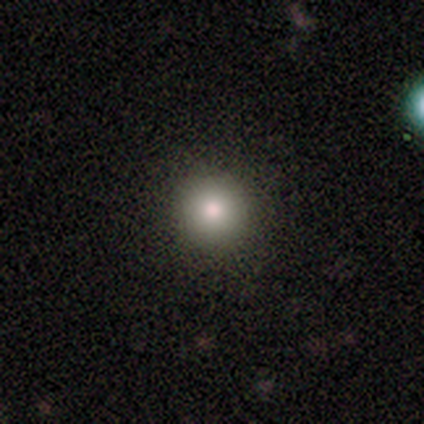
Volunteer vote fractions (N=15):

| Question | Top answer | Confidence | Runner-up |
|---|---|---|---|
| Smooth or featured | smooth | 87% | star or artifact (13%) |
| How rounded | round | 100% | — |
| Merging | none | 100% | — |